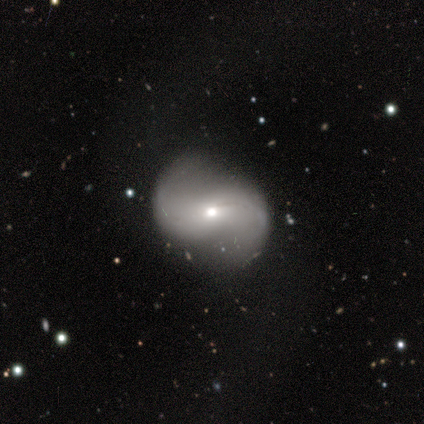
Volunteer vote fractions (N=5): Smooth or featured? 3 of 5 (60%) said featured or disk. Edge-on disk? 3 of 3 (100%) said no. Bar? 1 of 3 (33%, tied with weak and no) said strong. Spiral arms? 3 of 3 (100%) said yes. Spiral winding? 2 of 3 (67%) said medium. Spiral arm count? 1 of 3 (33%, tied with 2 and can't tell) said 1. Bulge size? 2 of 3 (67%) said small. Merging? 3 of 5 (60%) said none.